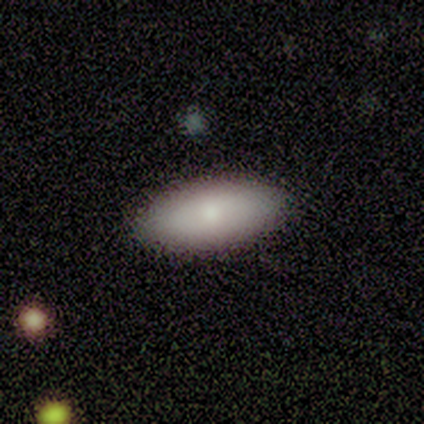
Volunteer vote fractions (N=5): Morphology: type=smooth (100%); roundness=in between (80%); merging=none (80%).